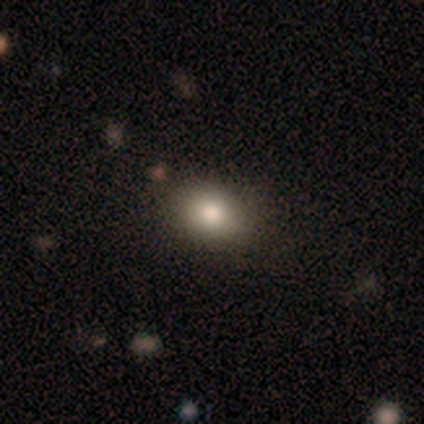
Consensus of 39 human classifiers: Smooth or featured? smooth (79%)
How rounded? in between (65%)
Merging? none (80%)